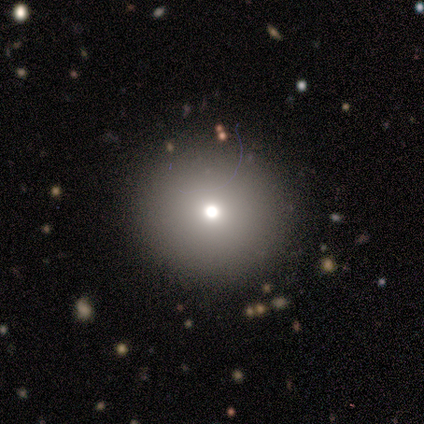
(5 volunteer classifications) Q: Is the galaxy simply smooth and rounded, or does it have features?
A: smooth — 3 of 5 (60%).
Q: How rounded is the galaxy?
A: round — 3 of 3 (100%).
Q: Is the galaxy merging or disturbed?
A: none — 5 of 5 (100%).